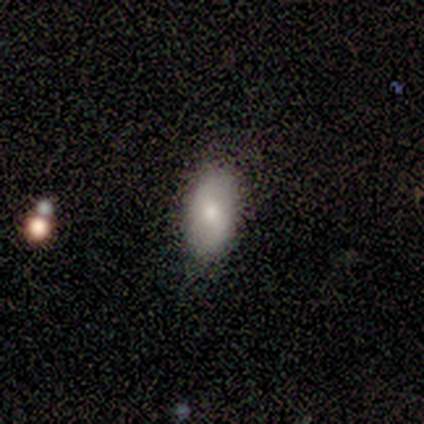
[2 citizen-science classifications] This appears to be a smooth galaxy with no disk features (100%) that is in between round and cigar-shaped (100%). Merging: none (100%).